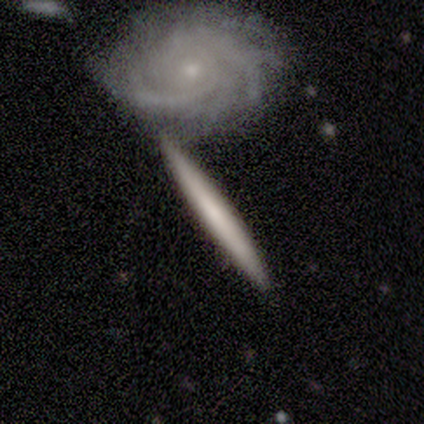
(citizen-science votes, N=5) Morphology: type=featured or disk (60%); edge-on=yes (67%); edge-on bulge=none (100%); merging=merger (60%).